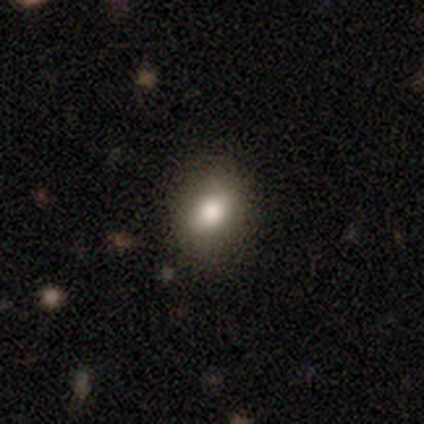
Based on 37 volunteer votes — Q: Smooth or featured?
A: smooth (86%); runner-up: featured or disk (11%)
Q: How rounded?
A: in between (53%); runner-up: round (44%)
Q: Merging?
A: none (81%); runner-up: minor disturbance (14%)